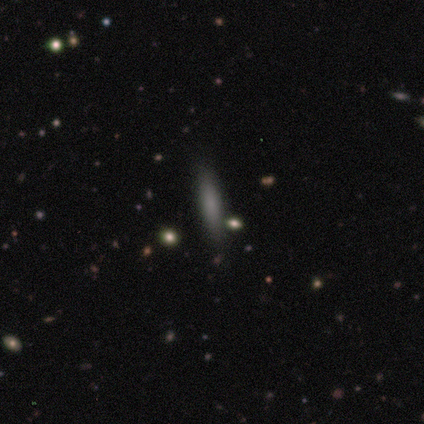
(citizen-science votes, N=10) A smooth galaxy with no disk features (70%) that is cigar-shaped (100%).

Vote fractions:
- Smooth or featured? smooth: 70% / featured or disk: 20% / star or artifact: 10%
- How rounded? cigar-shaped: 100% / round: 0% / in between: 0%
- Merging? none: 89% / minor disturbance: 11% / major disturbance: 0% / merger: 0%